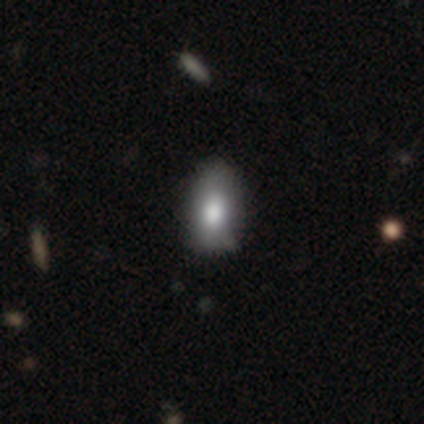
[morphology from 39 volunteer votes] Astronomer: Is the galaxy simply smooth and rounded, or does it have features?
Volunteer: smooth — 79%.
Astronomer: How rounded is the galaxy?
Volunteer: in between — 87%.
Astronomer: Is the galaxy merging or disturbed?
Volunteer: none — 73%.